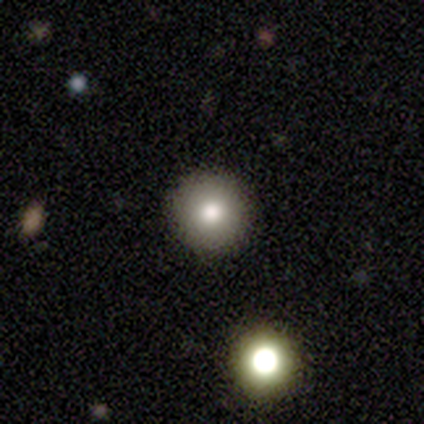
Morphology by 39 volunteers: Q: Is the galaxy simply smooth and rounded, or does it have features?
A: smooth — 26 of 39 (67%).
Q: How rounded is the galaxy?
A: round — 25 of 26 (96%).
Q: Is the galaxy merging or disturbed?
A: none — 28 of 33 (85%).